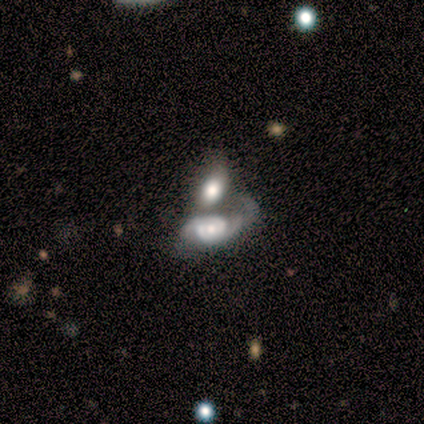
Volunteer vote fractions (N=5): Morphology: type=featured or disk (60%); edge-on=no (100%); bar=no (100%); spiral arms=yes (67%); winding=medium (100%); arm count=2 (100%); bulge=large (33%, tied with moderate and small); merging=major disturbance (40%).